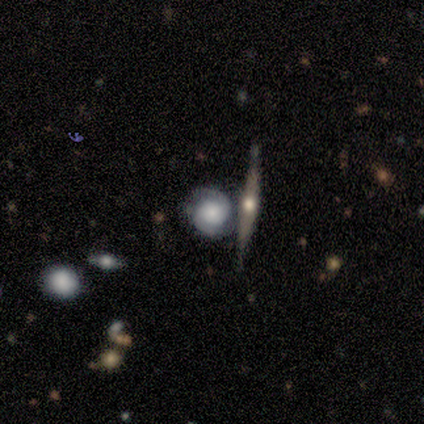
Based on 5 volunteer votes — This is clearly a featured or disk galaxy (100%). It is clearly not viewed edge-on (80%). Bar: possibly weak (50%, tied with no). Spiral arm pattern: clearly yes (100%). Spiral arm count: clearly 2 (100%). Spiral winding: likely tight (75%). Central bulge: possibly large (50%, tied with small). Merging: clearly none (80%).